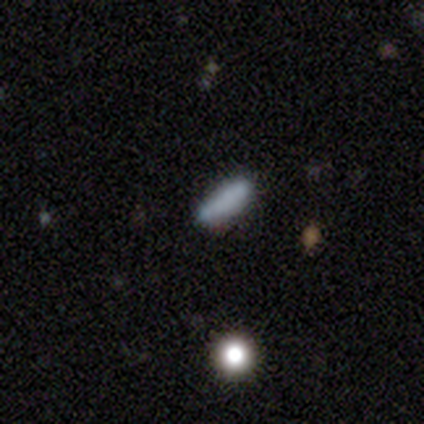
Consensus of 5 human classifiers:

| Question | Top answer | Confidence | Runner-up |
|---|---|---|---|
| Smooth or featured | smooth | 60% | featured or disk (20%) |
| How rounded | cigar-shaped | 67% | in between (33%) |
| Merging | none | 75% | minor disturbance (25%) |